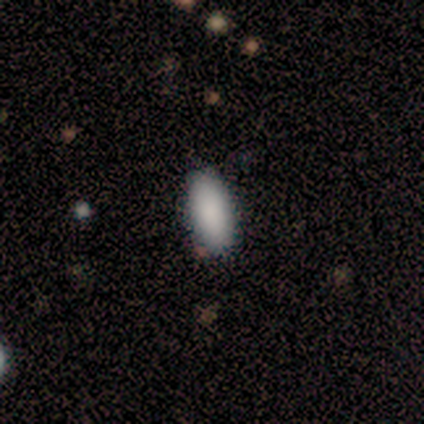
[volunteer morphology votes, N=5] smooth 60%, star or artifact 40%, featured or disk 0%. Down the decision tree: how rounded — in between (100%); merging — none (100%).